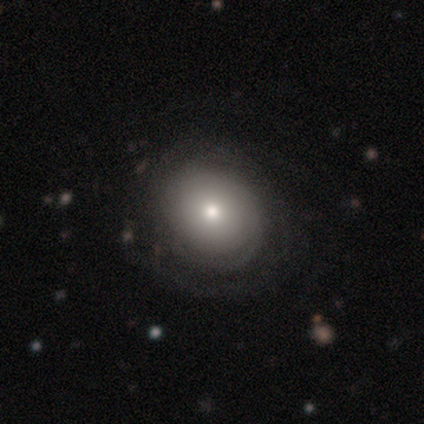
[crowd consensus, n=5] Smooth or featured? 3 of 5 (60%) said featured or disk. Edge-on disk? 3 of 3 (100%) said no. Bar? 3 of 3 (100%) said no. Spiral arms? 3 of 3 (100%) said no. Bulge size? 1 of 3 (33%, tied with moderate and small) said large. Merging? 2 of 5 (40%, tied with minor disturbance) said none.